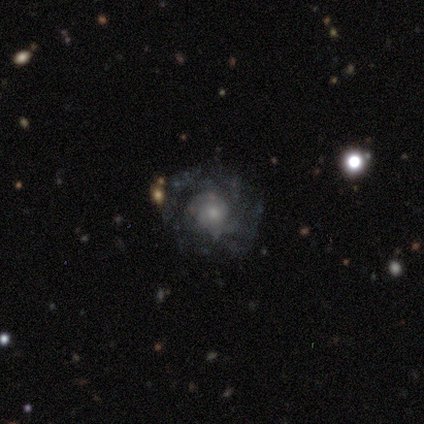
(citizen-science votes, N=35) smooth-or-featured: featured or disk: 80% | smooth: 14% | star or artifact: 6%
  disk-edge-on: no: 100% | yes: 0%
    bar: no: 75% | weak: 25% | strong: 0%
    has-spiral-arms: yes: 61% | no: 39%
      spiral-winding: tight: 65% | medium: 29% | loose: 6%
      spiral-arm-count: can't tell: 59% | 2: 29% | 1: 6% | 4: 6% | 3: 0% | more than 4: 0%
    bulge-size: small: 50% | moderate: 32% | none: 11% | large: 7% | dominant: 0%
  merging: none: 73% | major disturbance: 15% | minor disturbance: 12% | merger: 0%